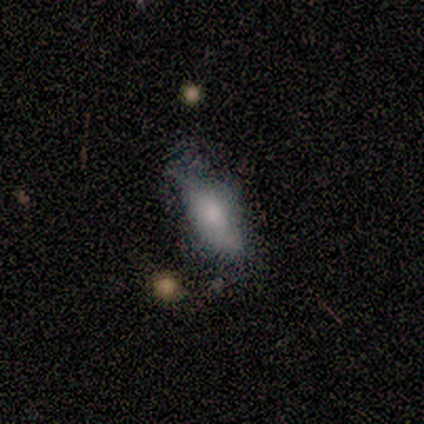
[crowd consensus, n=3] smooth_or_featured: smooth (p=1.00)
how_rounded: in between (p=1.00)
merging: none (p=0.67) [alt: minor disturbance p=0.33]